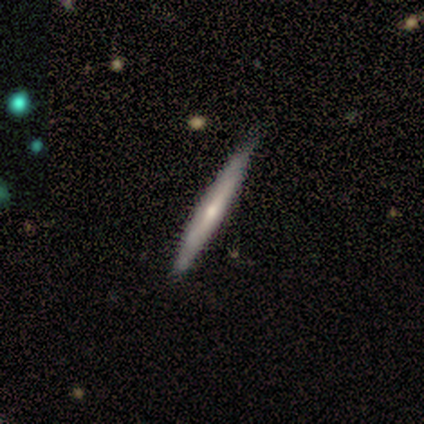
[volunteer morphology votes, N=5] This is likely a featured or disk galaxy (60%). It is clearly viewed edge-on (100%). Edge-on bulge: clearly rounded (100%). Merging: clearly none (100%).